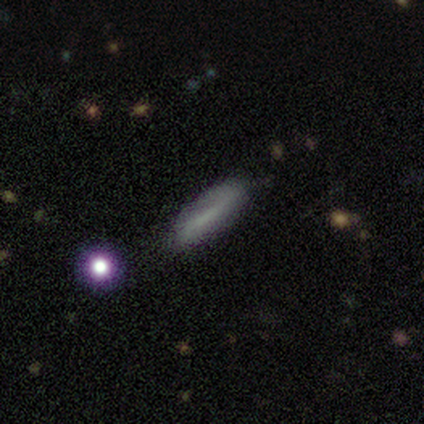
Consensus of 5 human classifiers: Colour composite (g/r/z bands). It shows a smooth galaxy with no disk features (80%) that is cigar-shaped (75%). Merging: none (100%).